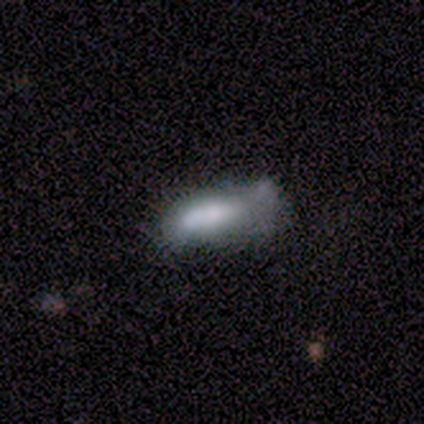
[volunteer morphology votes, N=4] Q: Smooth or featured?
A: smooth (50%); tied with: featured or disk (50%)
Q: How rounded?
A: in between (50%); tied with: cigar-shaped (50%)
Q: Merging?
A: minor disturbance (75%); runner-up: major disturbance (25%)